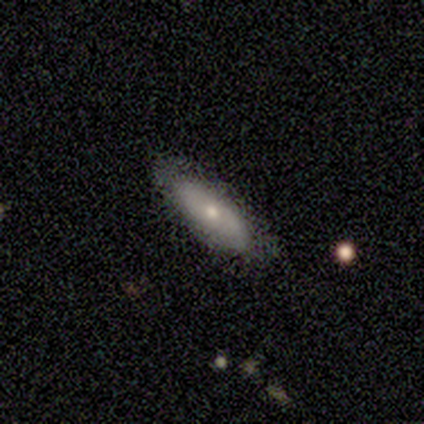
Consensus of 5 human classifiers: This is clearly a featured or disk galaxy (80%). It is likely not viewed edge-on (75%). Bar: clearly no (100%). Spiral arm pattern: likely no (67%). Central bulge: likely small (67%). Merging: clearly none (80%).